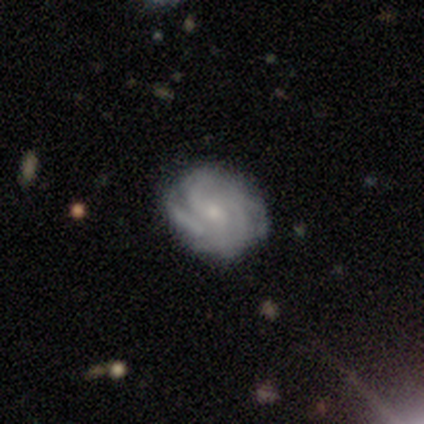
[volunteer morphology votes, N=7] Smooth or featured?
  - featured or disk: 86% *
  - star or artifact: 14%
  - smooth: 0%
Edge-on disk?
  - no: 100% *
  - yes: 0%
Bar?
  - no: 67% *
  - weak: 33%
  - strong: 0%
Spiral arms?
  - yes: 100% *
  - no: 0%
Spiral winding?
  - tight: 50% *
  - medium: 33%
  - loose: 17%
Spiral arm count?
  - 2: 33% * (tied)
  - 4: 33% * (tied)
  - 3: 17%
  - can't tell: 17%
  - 1: 0%
  - more than 4: 0%
Bulge size?
  - small: 83% *
  - moderate: 17%
  - dominant: 0%
  - large: 0%
  - none: 0%
Merging?
  - none: 83% *
  - merger: 17%
  - minor disturbance: 0%
  - major disturbance: 0%